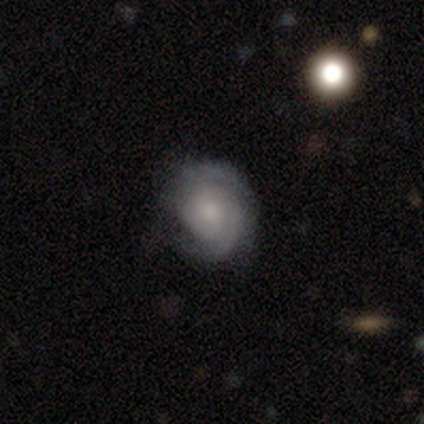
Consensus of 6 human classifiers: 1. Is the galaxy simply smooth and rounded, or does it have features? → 83% featured or disk, 17% smooth, 0% star or artifact.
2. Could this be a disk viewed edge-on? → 100% no, 0% yes.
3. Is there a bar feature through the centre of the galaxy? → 80% no, 20% weak, 0% strong.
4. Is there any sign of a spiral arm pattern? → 100% yes, 0% no.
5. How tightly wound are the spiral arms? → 60% tight, 40% medium, 0% loose.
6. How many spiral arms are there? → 60% 2, 40% can't tell, 0% 1, 0% 3, 0% 4, 0% more than 4.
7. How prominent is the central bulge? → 60% moderate, 40% small, 0% dominant, 0% large, 0% none.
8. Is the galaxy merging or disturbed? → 100% none, 0% minor disturbance, 0% major disturbance, 0% merger.